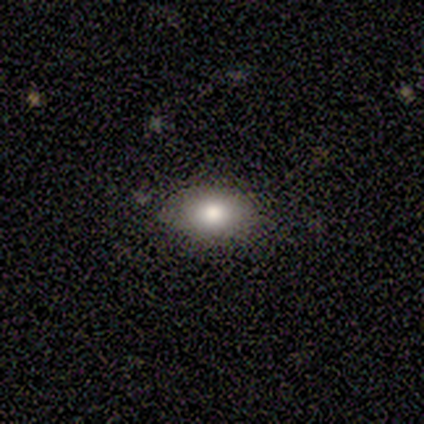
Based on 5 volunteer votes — smooth 100%, featured or disk 0%, star or artifact 0%. Down the decision tree: how rounded — in between (100%); merging — none (60%).